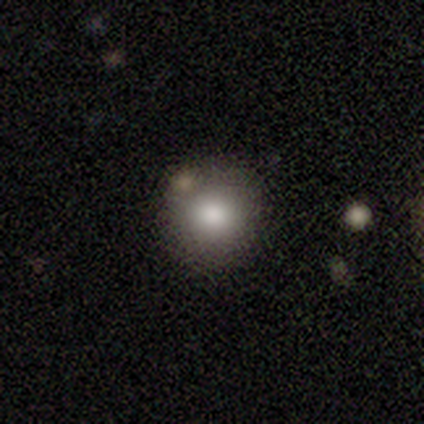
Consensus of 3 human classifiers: Overall: smooth (67%; featured or disk 33%). How rounded: round (100%). Merging: none (100%).